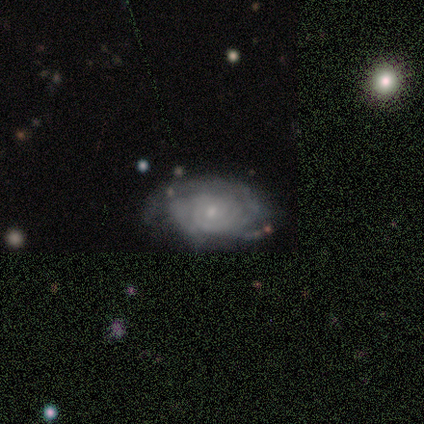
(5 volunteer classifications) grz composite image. It shows a featured or disk galaxy (80%) with no bar (75%), 2 (75%) tight (100%) spiral arms (100%) and a small central bulge (75%). Merging: none (50%, tied with minor disturbance).